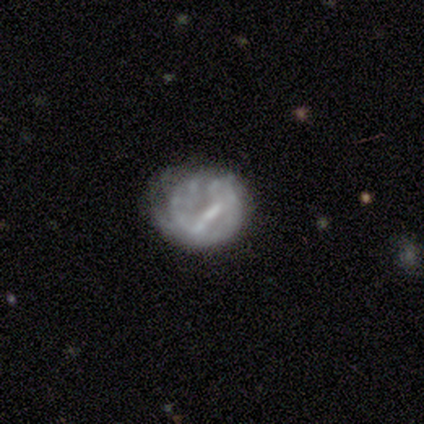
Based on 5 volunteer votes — Smooth or featured: featured or disk — 80% (smooth — 20%)
Edge-on disk: no — 75% (yes — 25%)
Bar: strong — 33% (tied with weak — 33%; no — 33%)
Spiral arms: no — 67% (yes — 33%)
Bulge size: moderate — 67% (none — 33%)
Merging: none — 60% (minor disturbance — 40%)